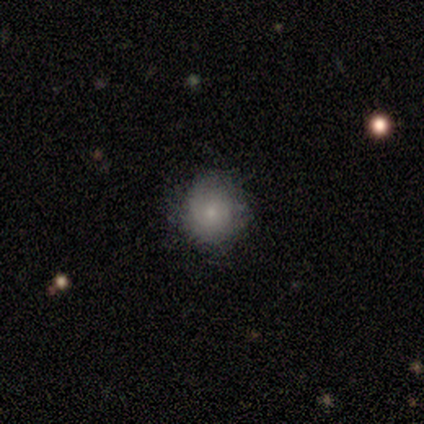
smooth-or-featured: smooth: 100% | featured or disk: 0% | star or artifact: 0%
  how-rounded: round: 60% | in between: 40% | cigar-shaped: 0%
  merging: none: 100% | minor disturbance: 0% | major disturbance: 0% | merger: 0%